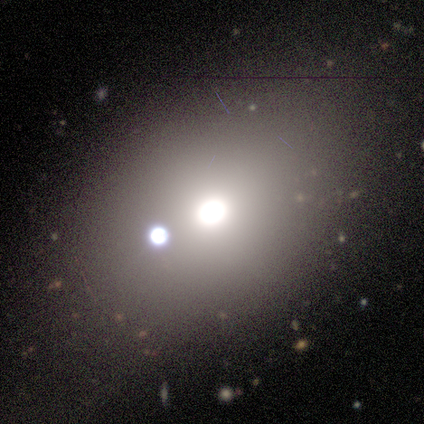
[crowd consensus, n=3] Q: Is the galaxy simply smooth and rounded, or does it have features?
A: smooth — 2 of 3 (67%).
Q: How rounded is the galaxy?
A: round — 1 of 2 (50%, tied with cigar-shaped).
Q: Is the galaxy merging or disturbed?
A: merger — 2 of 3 (67%).